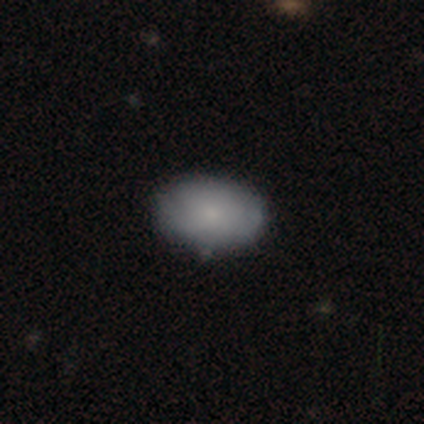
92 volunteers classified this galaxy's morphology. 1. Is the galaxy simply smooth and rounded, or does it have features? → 74% smooth, 18% featured or disk, 8% star or artifact.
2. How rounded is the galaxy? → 85% in between, 15% round, 0% cigar-shaped.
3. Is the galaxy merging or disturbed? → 82% none, 14% minor disturbance, 4% major disturbance, 0% merger.